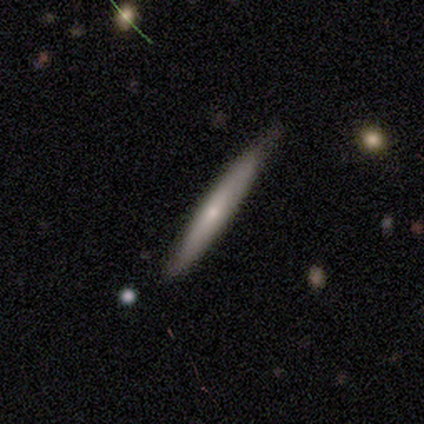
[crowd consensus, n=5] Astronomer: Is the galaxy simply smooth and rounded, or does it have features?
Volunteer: smooth — 80%.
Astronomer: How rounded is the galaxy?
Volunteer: cigar-shaped — 100%.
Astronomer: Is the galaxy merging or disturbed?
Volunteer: none — 40%, tied with minor disturbance at 40%.